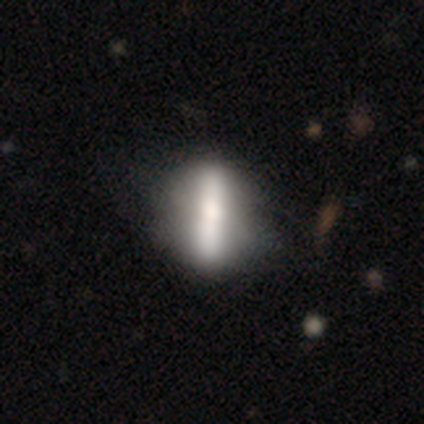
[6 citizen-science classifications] This appears to be a smooth galaxy with no disk features (67%) that is in between round and cigar-shaped (50%, tied with cigar-shaped). Merging: none (60%).